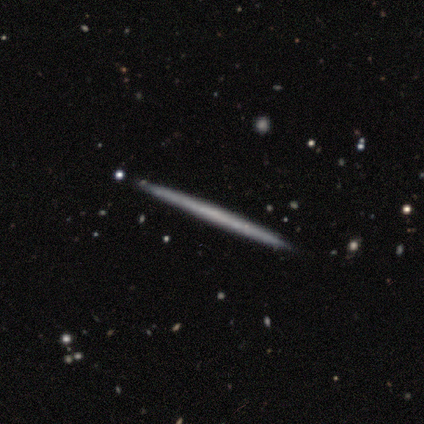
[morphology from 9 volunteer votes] Overall: featured or disk (56%; smooth 44%). Edge-on disk: yes (80%). Edge-on bulge: none (100%). Merging: none (100%).